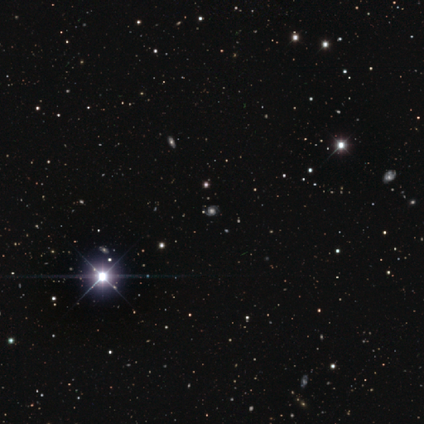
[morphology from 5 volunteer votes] This is likely a star or artifact rather than a galaxy (60%).